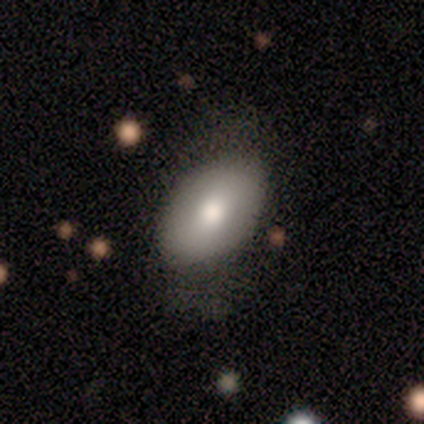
smooth_or_featured: smooth (p=0.73) [alt: featured or disk p=0.20]
how_rounded: in between (p=0.82) [alt: round p=0.18]
merging: none (p=0.57) [alt: minor disturbance p=0.29]